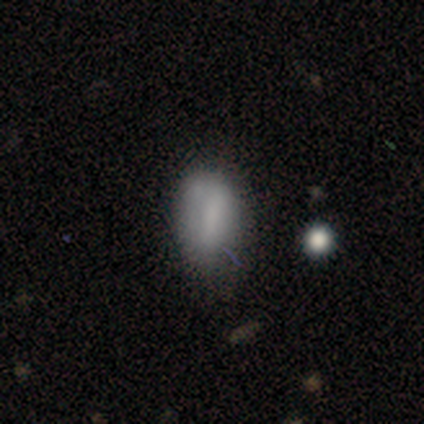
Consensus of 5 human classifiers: Smooth or featured? 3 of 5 (60%) said smooth. How rounded? 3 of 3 (100%) said in between. Merging? 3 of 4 (75%) said none.